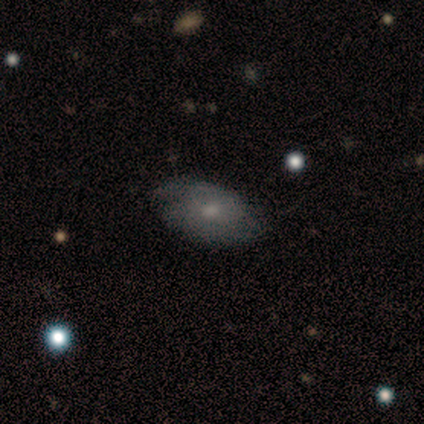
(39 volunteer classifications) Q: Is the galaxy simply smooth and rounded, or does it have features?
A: smooth — 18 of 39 (46%, tied with featured or disk).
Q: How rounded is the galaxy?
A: in between — 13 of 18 (72%).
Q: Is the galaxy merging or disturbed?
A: none — 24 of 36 (67%).